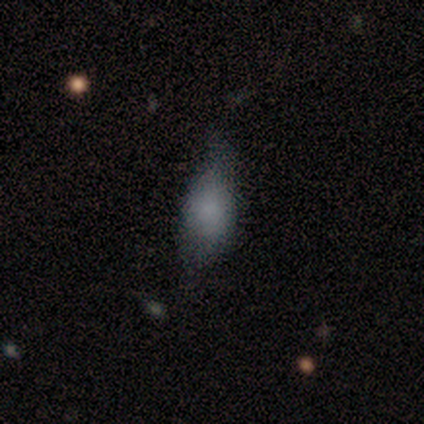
A smooth galaxy with no disk features (100%) that is in between round and cigar-shaped (80%). Merging: minor disturbance (60%).